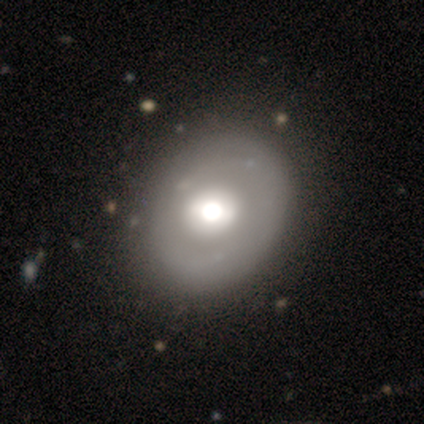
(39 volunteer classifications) Smooth or featured? 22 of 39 (56%) said featured or disk. Edge-on disk? 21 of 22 (95%) said no. Bar? 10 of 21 (48%) said no. Spiral arms? 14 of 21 (67%) said no. Bulge size? 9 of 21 (43%, tied with moderate) said large. Merging? 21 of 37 (57%) said none.